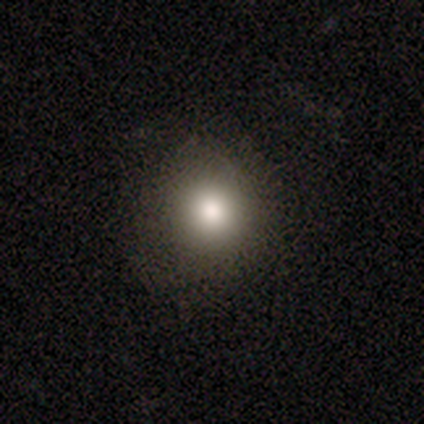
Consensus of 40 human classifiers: smooth 82%, star or artifact 15%, featured or disk 2%. Down the decision tree: how rounded — round (97%); merging — none (94%).